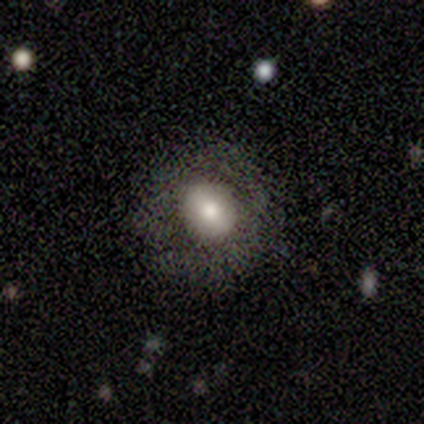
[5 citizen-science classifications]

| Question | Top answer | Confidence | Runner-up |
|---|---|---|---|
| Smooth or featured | featured or disk | 80% | smooth (20%) |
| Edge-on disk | no | 100% | — |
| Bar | weak | 50% | tied: no (50%) |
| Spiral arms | no | 100% | — |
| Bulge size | moderate | 75% | small (25%) |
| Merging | minor disturbance | 60% | none (40%) |